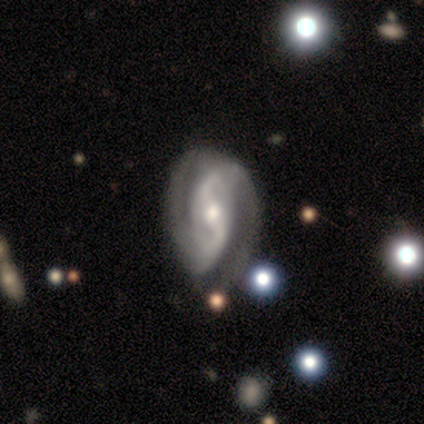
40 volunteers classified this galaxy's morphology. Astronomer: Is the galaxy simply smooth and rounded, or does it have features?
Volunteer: featured or disk — 90%.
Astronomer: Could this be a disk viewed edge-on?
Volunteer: no — 94%.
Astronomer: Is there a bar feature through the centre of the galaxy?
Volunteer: no — 38% (runner-up: strong, 32%).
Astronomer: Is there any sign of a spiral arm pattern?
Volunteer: yes — 91%.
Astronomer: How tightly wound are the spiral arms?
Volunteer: loose — 42% (runner-up: medium, 32%).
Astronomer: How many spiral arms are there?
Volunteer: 2 — 97%.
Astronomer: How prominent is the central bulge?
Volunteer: moderate — 47% (runner-up: small, 44%).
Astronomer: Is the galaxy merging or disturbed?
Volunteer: none — 64%.